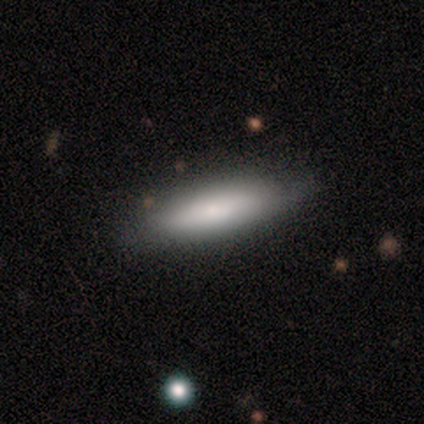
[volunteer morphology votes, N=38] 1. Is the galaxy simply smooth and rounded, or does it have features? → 95% smooth, 5% featured or disk, 0% star or artifact.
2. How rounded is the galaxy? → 75% cigar-shaped, 25% in between, 0% round.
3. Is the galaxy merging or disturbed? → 89% none, 11% minor disturbance, 0% major disturbance, 0% merger.